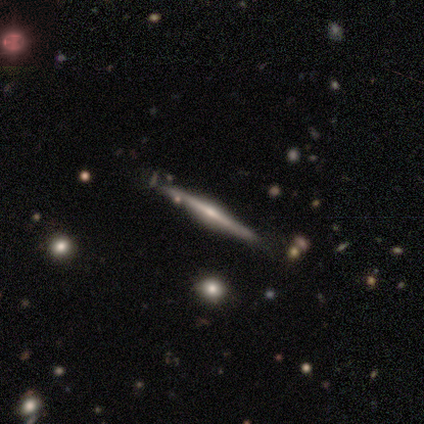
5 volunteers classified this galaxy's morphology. Volunteers were most divided on "edge-on bulge": rounded: 67%, none: 33%, boxy: 0%. More confident: edge-on disk — yes (100%); merging — none (75%); smooth or featured — featured or disk (60%).